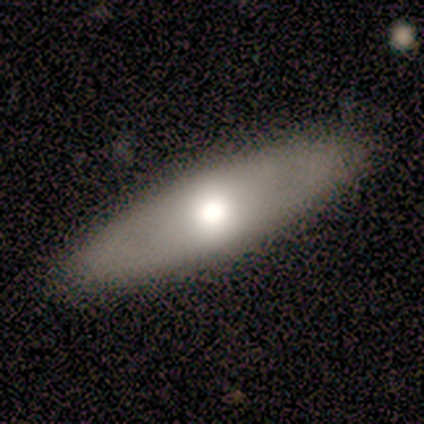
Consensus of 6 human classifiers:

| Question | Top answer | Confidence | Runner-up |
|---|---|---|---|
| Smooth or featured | smooth | 83% | featured or disk (17%) |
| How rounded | cigar-shaped | 80% | in between (20%) |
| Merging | none | 100% | — |